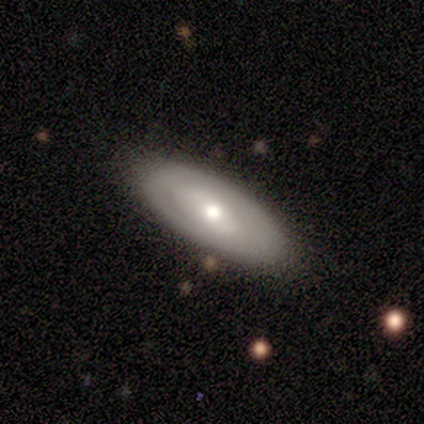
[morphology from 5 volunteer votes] Overall: featured or disk (60%; smooth 40%). Edge-on disk: no (67%; yes 33%). Bar: no (100%). Spiral arms: no (100%). Bulge size: moderate (100%). Merging: none (100%).